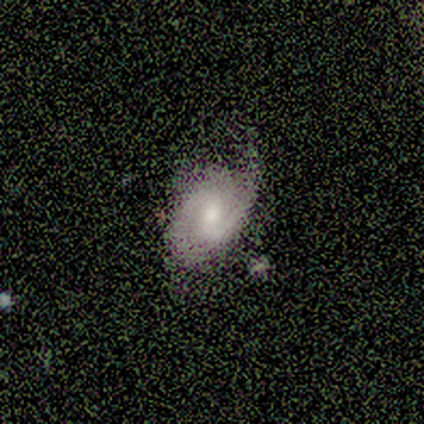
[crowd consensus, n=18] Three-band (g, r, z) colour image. It shows a featured or disk galaxy (78%) with a weak bar (69%), 2 (92%) medium (62%) spiral arms (100%) and a moderate central bulge (77%). Merging: none (67%).